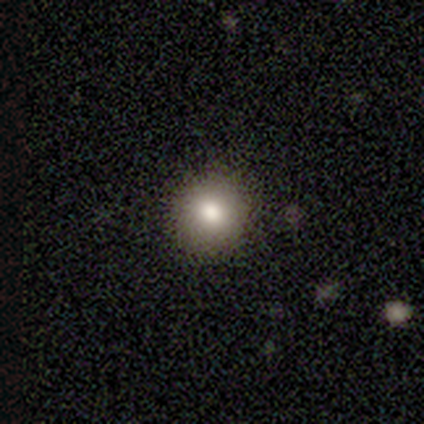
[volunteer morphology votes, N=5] Volunteers were most divided on "how rounded": round: 80%, in between: 20%, cigar-shaped: 0%. More confident: smooth or featured — smooth (100%); merging — none (100%).